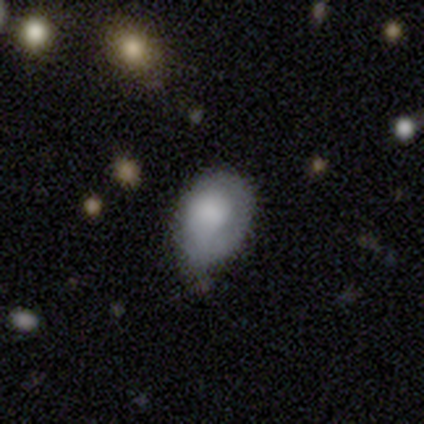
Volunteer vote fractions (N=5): A smooth galaxy with no disk features (80%) that is in between round and cigar-shaped (100%).

Vote fractions:
- Smooth or featured? smooth: 80% / featured or disk: 20% / star or artifact: 0%
- How rounded? in between: 100% / round: 0% / cigar-shaped: 0%
- Merging? minor disturbance: 60% / none: 20% / major disturbance: 20% / merger: 0%